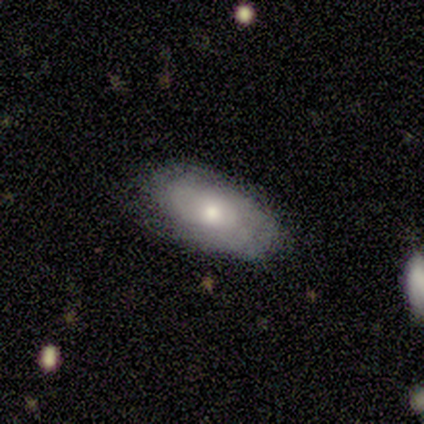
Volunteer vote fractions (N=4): A star or artifact, not a galaxy (50%).